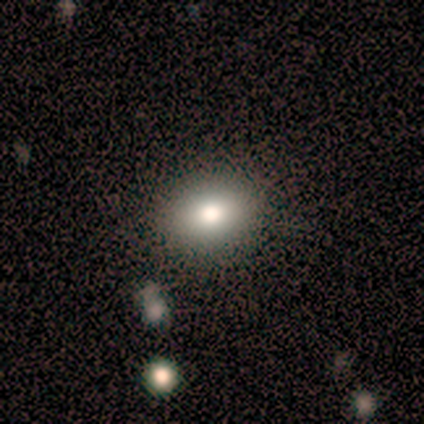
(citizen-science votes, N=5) A smooth galaxy with no disk features (80%) that is round (50%, tied with in between).

Vote fractions:
- Smooth or featured? smooth: 80% / featured or disk: 20% / star or artifact: 0%
- How rounded? round: 50% (tied) / in between: 50% (tied) / cigar-shaped: 0%
- Merging? none: 80% / minor disturbance: 20% / major disturbance: 0% / merger: 0%